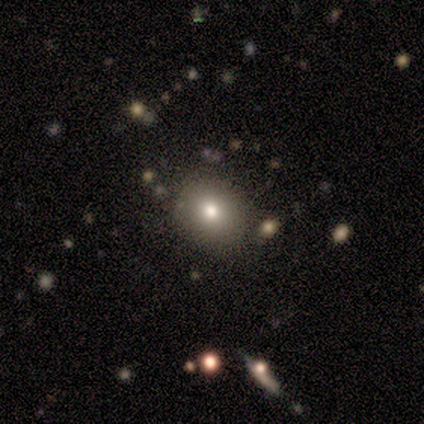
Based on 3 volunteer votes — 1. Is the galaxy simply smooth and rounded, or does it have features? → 100% smooth, 0% featured or disk, 0% star or artifact.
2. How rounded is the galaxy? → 100% in between, 0% round, 0% cigar-shaped.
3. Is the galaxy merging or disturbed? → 67% none, 33% minor disturbance, 0% major disturbance, 0% merger.